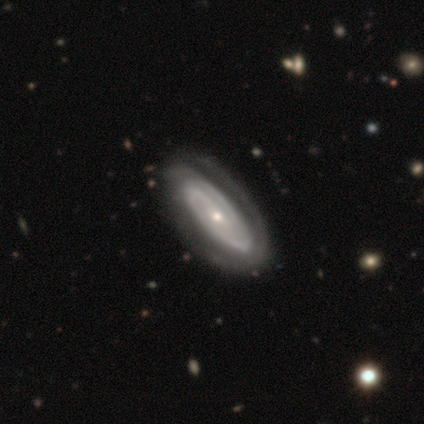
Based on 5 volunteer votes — This is likely a featured or disk galaxy (60%). It is clearly not viewed edge-on (100%). Bar: likely weak (67%). Spiral arm pattern: clearly yes (100%). Spiral arm count: likely 2 (67%). Spiral winding: likely tight (67%). Central bulge: clearly small (100%). Merging: clearly none (80%).